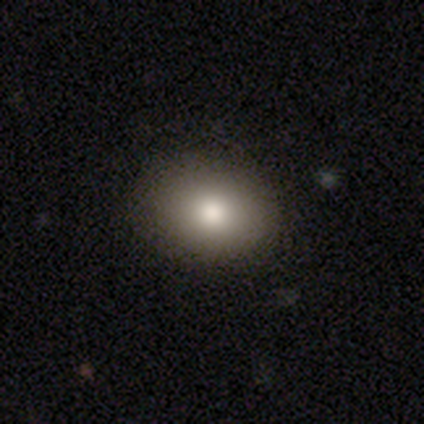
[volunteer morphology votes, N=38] type=smooth (82%); roundness=in between (74%); merging=none (50%).